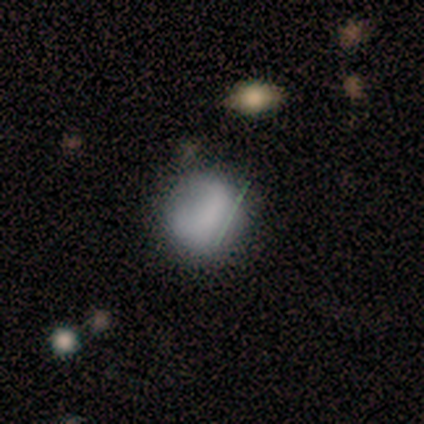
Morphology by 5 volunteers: smooth_or_featured: smooth (p=0.60) [alt: featured or disk p=0.20]
how_rounded: round (p=1.00)
merging: none (p=0.50) [alt: minor disturbance p=0.25]